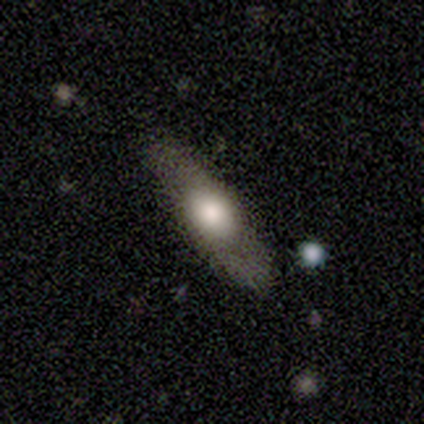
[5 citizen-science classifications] Overall: smooth (40%, tied with featured or disk). How rounded: in between (50%, tied with cigar-shaped). Merging: none (75%).